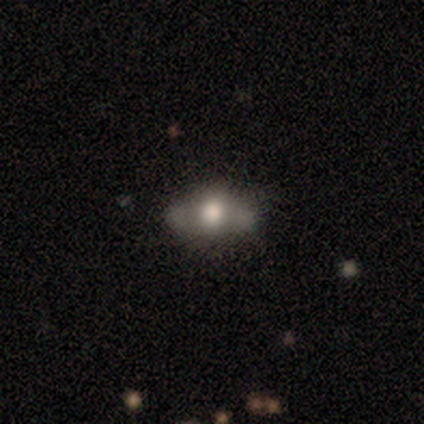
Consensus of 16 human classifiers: This appears to be a featured or disk galaxy (62%) with no bar (100%), no spiral arms (88%) and a large central bulge (50%). Merging: none (73%).